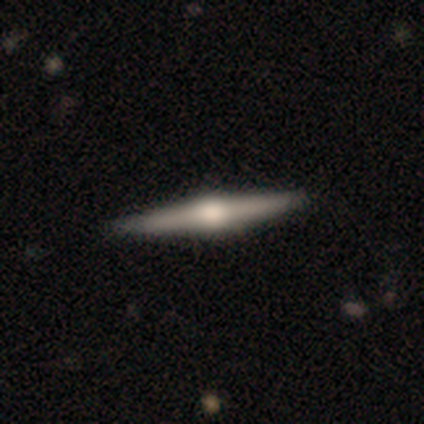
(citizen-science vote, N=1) Smooth or featured?
  - smooth: 100% *
  - featured or disk: 0%
  - star or artifact: 0%
How rounded?
  - cigar-shaped: 100% *
  - round: 0%
  - in between: 0%
Merging?
  - minor disturbance: 100% *
  - none: 0%
  - major disturbance: 0%
  - merger: 0%